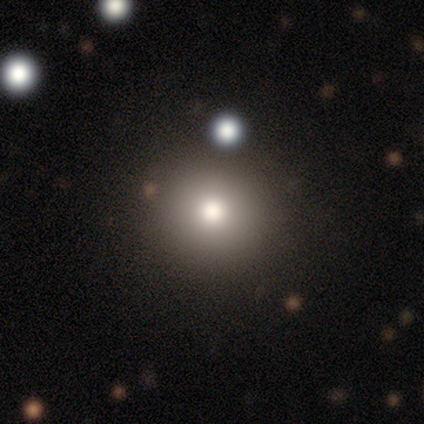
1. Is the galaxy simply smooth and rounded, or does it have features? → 72% smooth, 20% featured or disk, 8% star or artifact.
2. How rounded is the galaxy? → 93% round, 7% in between, 0% cigar-shaped.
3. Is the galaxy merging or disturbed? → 84% none, 14% minor disturbance, 3% major disturbance, 0% merger.